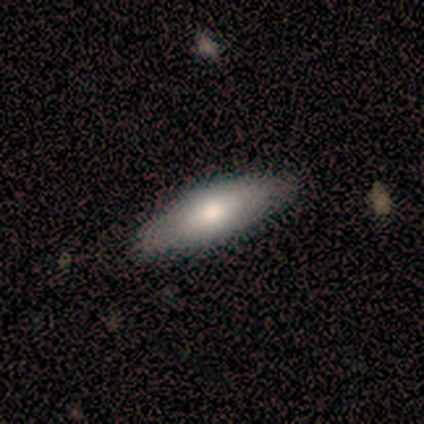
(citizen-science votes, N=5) This appears to be a smooth galaxy with no disk features (60%) that is cigar-shaped (67%). Merging: none (100%).